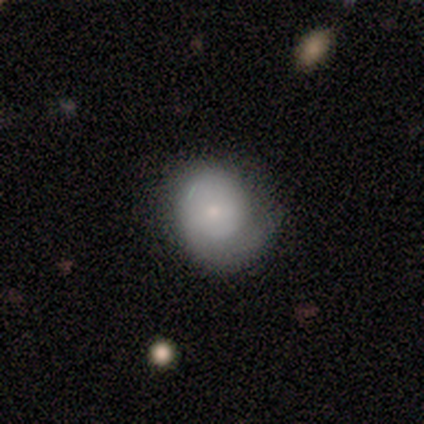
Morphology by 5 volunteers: Q: Smooth or featured?
A: featured or disk (80%); runner-up: smooth (20%)
Q: Edge-on disk?
A: no (100%)
Q: Bar?
A: no (75%); runner-up: weak (25%)
Q: Spiral arms?
A: yes (50%); tied with: no (50%)
Q: Spiral winding?
A: tight (50%); tied with: medium (50%)
Q: Spiral arm count?
A: 1 (100%)
Q: Bulge size?
A: small (100%)
Q: Merging?
A: none (40%); tied with: major disturbance (40%)